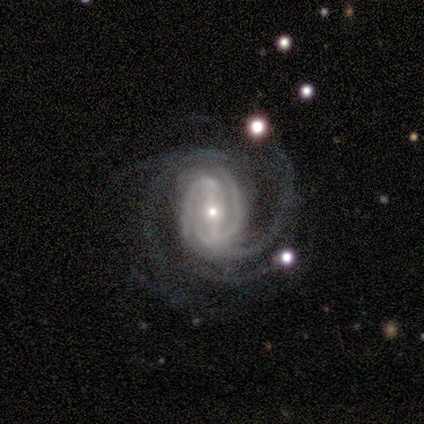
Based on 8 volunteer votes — Morphology: type=featured or disk (88%); edge-on=no (100%); bar=strong (43%); spiral arms=yes (100%); winding=medium (57%); arm count=4 (29%, tied with can't tell); bulge=moderate (57%); merging=none (57%).